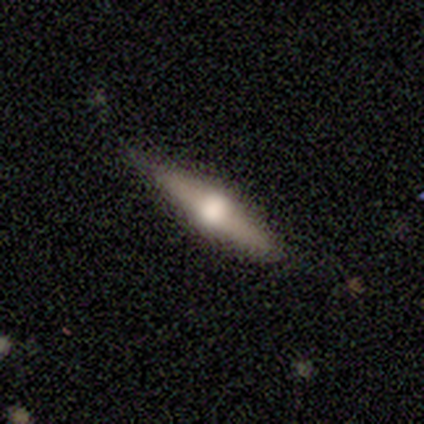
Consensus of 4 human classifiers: Smooth or featured: featured or disk — 75% (smooth — 25%)
Edge-on disk: yes — 100%
Edge-on bulge: rounded — 100%
Merging: none — 100%